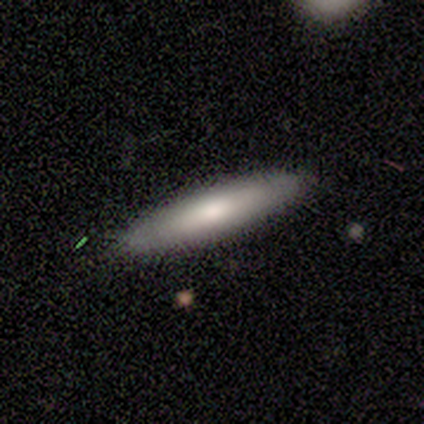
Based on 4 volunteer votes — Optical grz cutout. It shows a smooth galaxy with no disk features (75%) that is cigar-shaped (67%). Merging: none (100%).